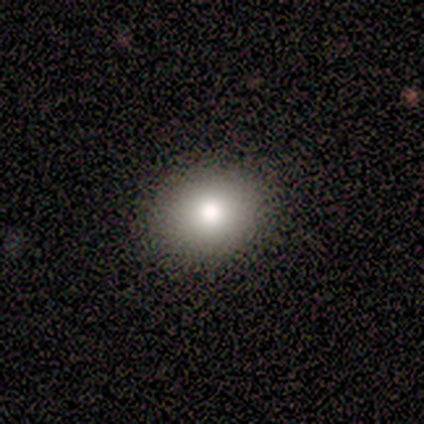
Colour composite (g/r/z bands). It shows a smooth galaxy with no disk features (75%) that is round (100%). Merging: none (100%).